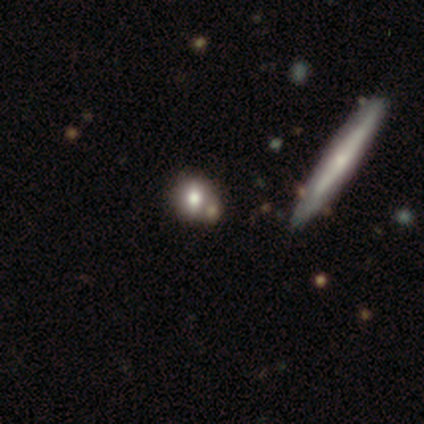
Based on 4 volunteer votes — smooth_or_featured: smooth (p=0.50) [tied with: star or artifact p=0.50]
how_rounded: round (p=1.00)
merging: none (p=1.00)